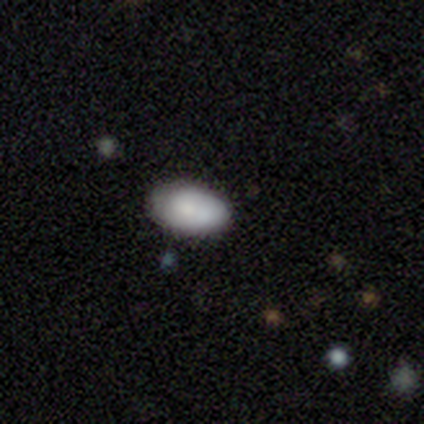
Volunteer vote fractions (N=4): Smooth or featured?
  - smooth: 75% *
  - featured or disk: 25%
  - star or artifact: 0%
How rounded?
  - in between: 100% *
  - round: 0%
  - cigar-shaped: 0%
Merging?
  - none: 75% *
  - minor disturbance: 25%
  - major disturbance: 0%
  - merger: 0%